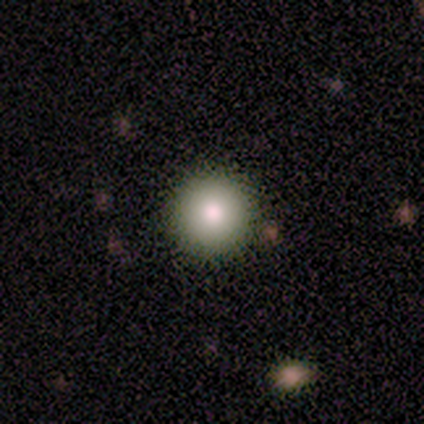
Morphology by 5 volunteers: Smooth or featured: smooth — 100%
How rounded: round — 100%
Merging: none — 100%